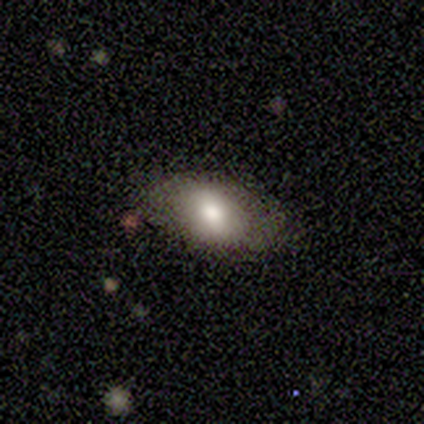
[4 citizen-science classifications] A smooth galaxy with no disk features (50%) that is in between round and cigar-shaped (100%).

Vote fractions:
- Smooth or featured? smooth: 50% / featured or disk: 25% / star or artifact: 25%
- How rounded? in between: 100% / round: 0% / cigar-shaped: 0%
- Merging? none: 100% / minor disturbance: 0% / major disturbance: 0% / merger: 0%